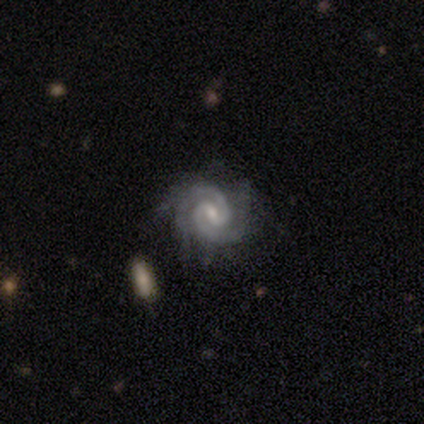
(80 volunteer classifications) Morphology: type=featured or disk (95%); edge-on=no (99%); bar=weak (60%); spiral arms=yes (99%); winding=tight (53%); arm count=2 (84%); bulge=small (60%); merging=none (35%).